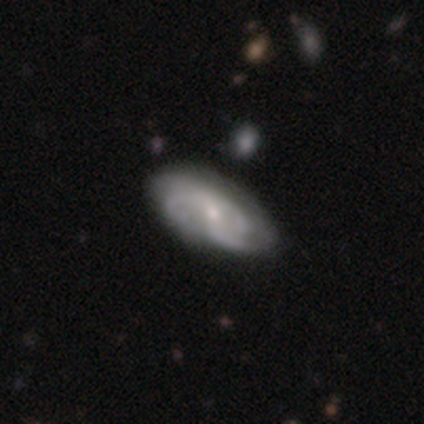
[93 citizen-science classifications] smooth-or-featured: featured or disk: 78% | smooth: 15% | star or artifact: 6%
  disk-edge-on: no: 92% | yes: 8%
    bar: no: 52% | weak: 39% | strong: 9%
    has-spiral-arms: yes: 94% | no: 6%
      spiral-winding: medium: 56% | tight: 30% | loose: 14%
      spiral-arm-count: 3: 38% | can't tell: 35% | 2: 21% | 4: 6% | 1: 0% | more than 4: 0%
    bulge-size: small: 70% | moderate: 27% | large: 1% | none: 1% | dominant: 0%
  merging: none: 79% | minor disturbance: 18% | major disturbance: 2% | merger: 0%